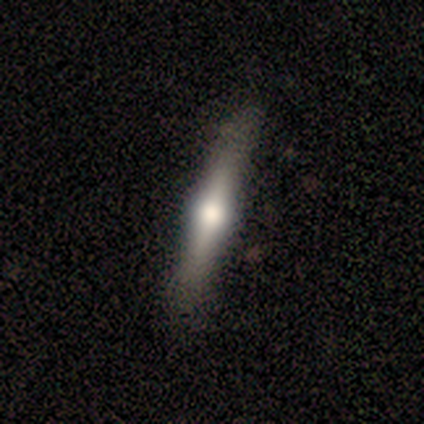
Overall: featured or disk (58%; smooth 32%). Edge-on disk: yes (100%). Edge-on bulge: rounded (100%). Merging: none (85%).